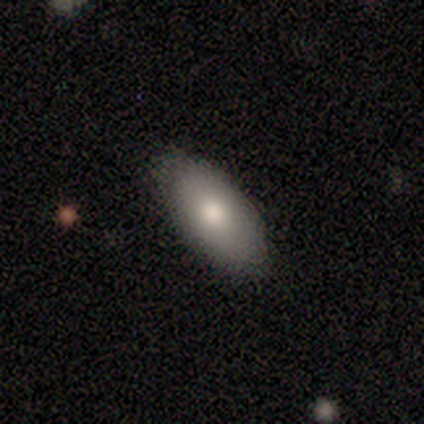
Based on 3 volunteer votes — Smooth or featured?
  - smooth: 100% *
  - featured or disk: 0%
  - star or artifact: 0%
How rounded?
  - in between: 100% *
  - round: 0%
  - cigar-shaped: 0%
Merging?
  - none: 100% *
  - minor disturbance: 0%
  - major disturbance: 0%
  - merger: 0%